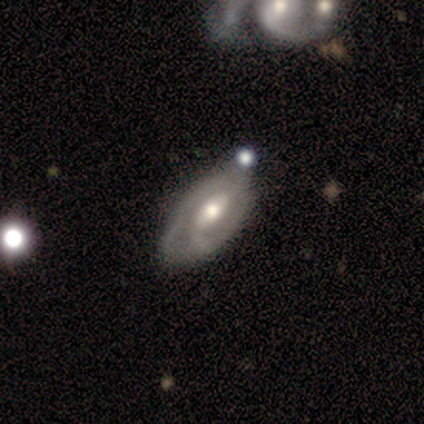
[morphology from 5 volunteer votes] smooth-or-featured: featured or disk: 80% | star or artifact: 20% | smooth: 0%
  disk-edge-on: no: 100% | yes: 0%
    bar: no: 75% | weak: 25% | strong: 0%
    has-spiral-arms: yes: 75% | no: 25%
      spiral-winding: tight: 67% | medium: 33% | loose: 0%
      spiral-arm-count: 2: 100% | 1: 0% | 3: 0% | 4: 0% | more than 4: 0% | can't tell: 0%
    bulge-size: moderate: 75% | small: 25% | dominant: 0% | large: 0% | none: 0%
  merging: none: 75% | minor disturbance: 25% | major disturbance: 0% | merger: 0%